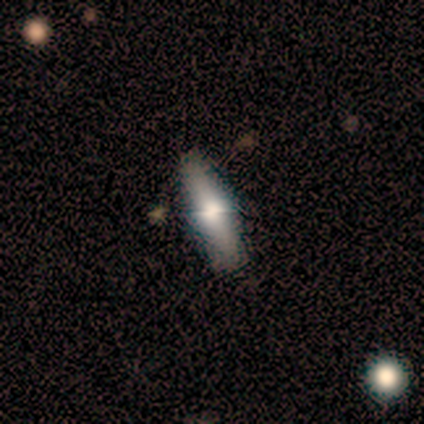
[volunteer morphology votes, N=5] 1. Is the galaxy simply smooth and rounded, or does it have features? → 60% smooth, 40% featured or disk, 0% star or artifact.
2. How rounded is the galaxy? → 100% cigar-shaped, 0% round, 0% in between.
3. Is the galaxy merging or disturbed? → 60% none, 20% minor disturbance, 20% major disturbance, 0% merger.